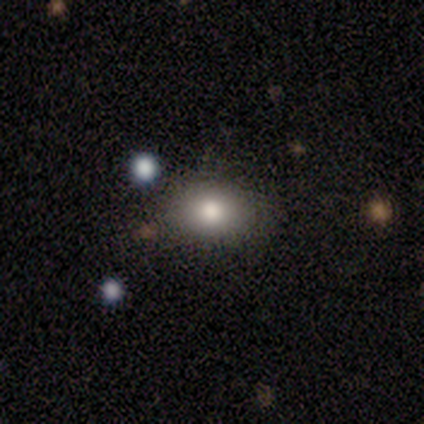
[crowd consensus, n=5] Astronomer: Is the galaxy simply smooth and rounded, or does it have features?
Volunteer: smooth — 80%.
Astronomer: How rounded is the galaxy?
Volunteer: in between — 75%.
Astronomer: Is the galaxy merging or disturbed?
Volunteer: none — 75%.